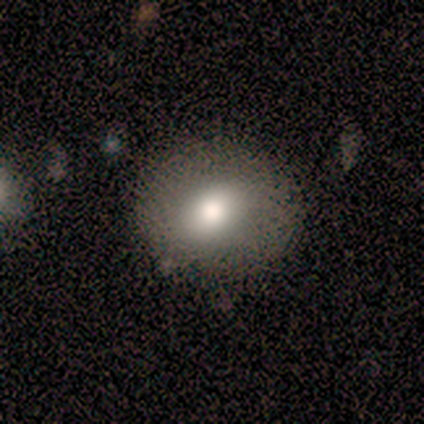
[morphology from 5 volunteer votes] Smooth or featured?
  - smooth: 100% *
  - featured or disk: 0%
  - star or artifact: 0%
How rounded?
  - round: 100% *
  - in between: 0%
  - cigar-shaped: 0%
Merging?
  - none: 60% *
  - minor disturbance: 40%
  - major disturbance: 0%
  - merger: 0%